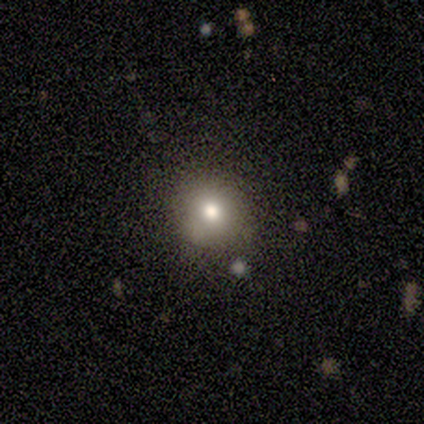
Smooth or featured? 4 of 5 (80%) said smooth. How rounded? 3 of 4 (75%) said round. Merging? 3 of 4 (75%) said none.